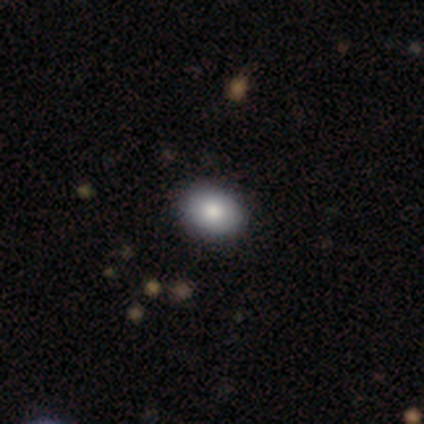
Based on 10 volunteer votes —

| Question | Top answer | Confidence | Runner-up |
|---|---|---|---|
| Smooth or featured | smooth | 100% | — |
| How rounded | in between | 50% | round (40%) |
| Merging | none | 90% | minor disturbance (10%) |